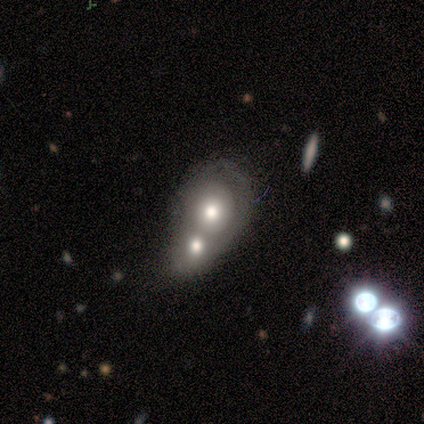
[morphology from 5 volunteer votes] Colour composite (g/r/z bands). It shows a smooth galaxy with no disk features (40%, tied with featured or disk) that is round (100%). Merging: merger (100%).